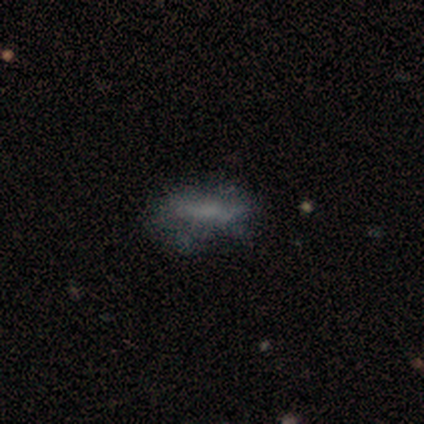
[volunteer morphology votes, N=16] A smooth galaxy with no disk features (62%) that is in between round and cigar-shaped (100%).

Vote fractions:
- Smooth or featured? smooth: 62% / featured or disk: 31% / star or artifact: 6%
- How rounded? in between: 100% / round: 0% / cigar-shaped: 0%
- Merging? minor disturbance: 47% / none: 40% / major disturbance: 13% / merger: 0%